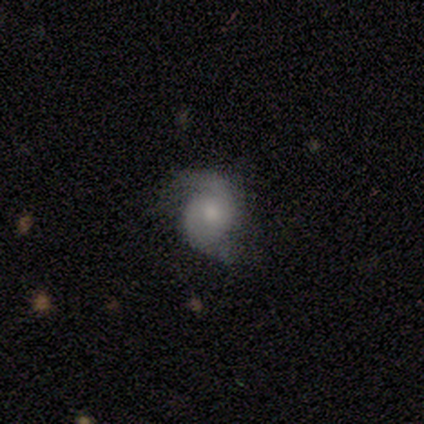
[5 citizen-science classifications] Q: Smooth or featured?
A: featured or disk (60%); runner-up: smooth (40%)
Q: Edge-on disk?
A: no (100%)
Q: Bar?
A: no (100%)
Q: Spiral arms?
A: yes (100%)
Q: Spiral winding?
A: loose (67%); runner-up: medium (33%)
Q: Spiral arm count?
A: 2 (100%)
Q: Bulge size?
A: moderate (33%); tied with: small (33%); none (33%)
Q: Merging?
A: none (80%); runner-up: minor disturbance (20%)